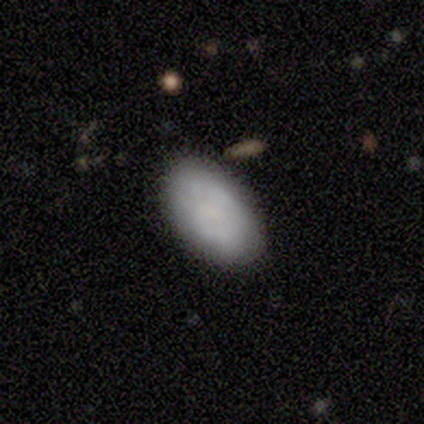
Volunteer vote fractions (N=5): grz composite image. It shows a smooth galaxy with no disk features (60%) that is in between round and cigar-shaped (100%). Merging: none (100%).